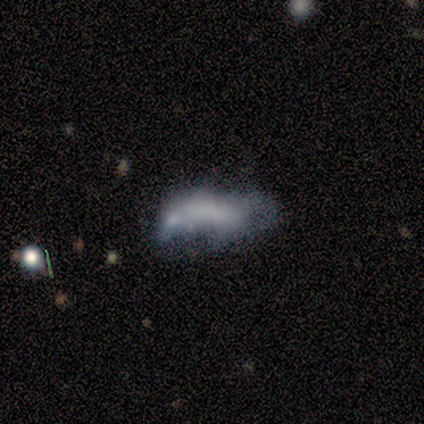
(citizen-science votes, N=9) This is possibly a smooth galaxy (56%). How rounded: clearly in between (80%). Merging: possibly minor disturbance (50%).